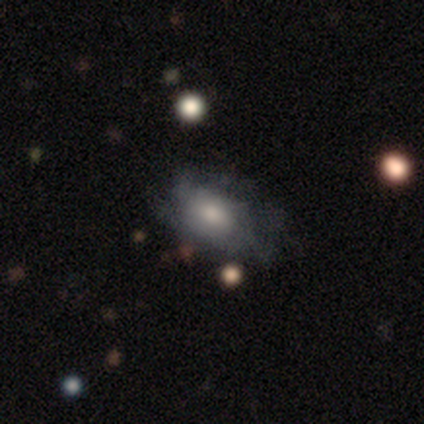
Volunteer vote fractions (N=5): Smooth or featured?
  - smooth: 60% *
  - featured or disk: 40%
  - star or artifact: 0%
How rounded?
  - in between: 100% *
  - round: 0%
  - cigar-shaped: 0%
Merging?
  - none: 60% *
  - minor disturbance: 40%
  - major disturbance: 0%
  - merger: 0%